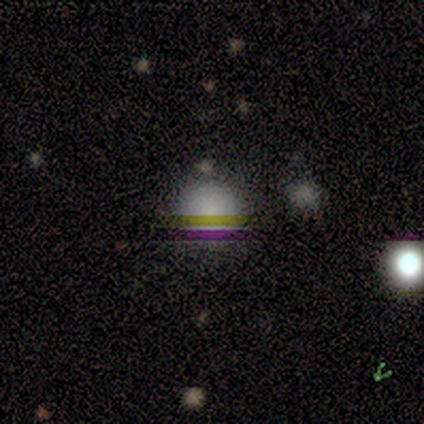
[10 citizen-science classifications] Smooth or featured? smooth (70%)
How rounded? round (100%)
Merging? none (88%)